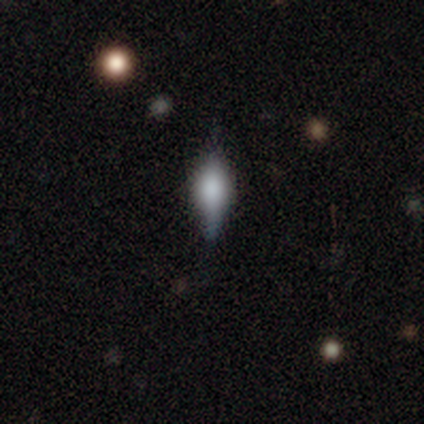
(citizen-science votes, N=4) smooth_or_featured: featured or disk (p=1.00)
disk_edge_on: yes (p=1.00)
edge_on_bulge: rounded (p=1.00)
merging: none (p=1.00)